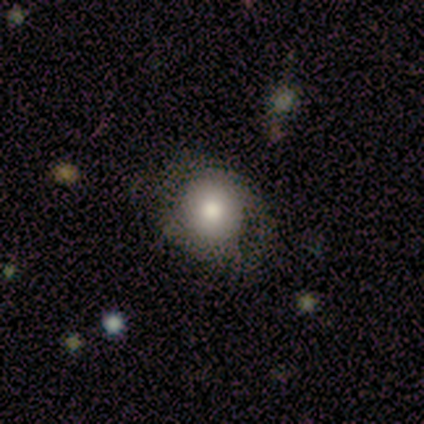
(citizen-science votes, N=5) smooth 60%, featured or disk 40%, star or artifact 0%. Down the decision tree: how rounded — round (100%); merging — none (60%).